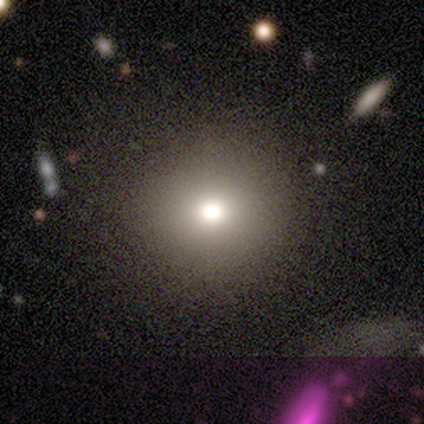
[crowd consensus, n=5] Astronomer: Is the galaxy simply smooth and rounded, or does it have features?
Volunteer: smooth — 60%.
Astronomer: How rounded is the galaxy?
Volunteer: round — 100%.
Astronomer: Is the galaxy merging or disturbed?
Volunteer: none — 100%.